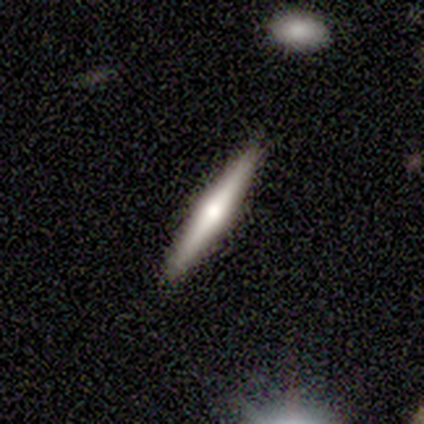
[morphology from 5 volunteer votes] type=featured or disk (60%); edge-on=yes (100%); edge-on bulge=rounded (100%); merging=none (100%).